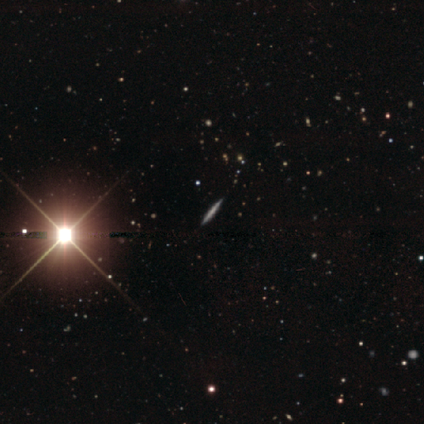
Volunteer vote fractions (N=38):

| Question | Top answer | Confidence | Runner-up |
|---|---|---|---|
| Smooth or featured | featured or disk | 37% | smooth (32%) |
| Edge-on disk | yes | 100% | — |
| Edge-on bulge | none | 71% | rounded (29%) |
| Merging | none | 77% | — |